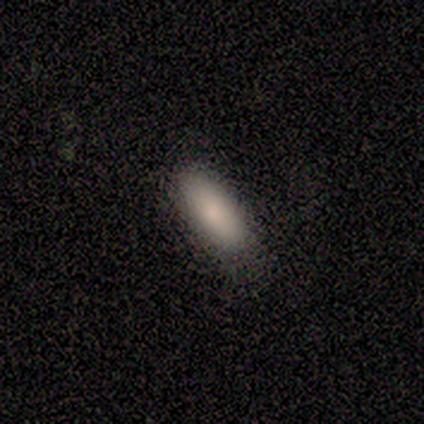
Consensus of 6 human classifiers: Q: Smooth or featured?
A: smooth (100%)
Q: How rounded?
A: in between (83%); runner-up: cigar-shaped (17%)
Q: Merging?
A: none (67%); runner-up: minor disturbance (33%)